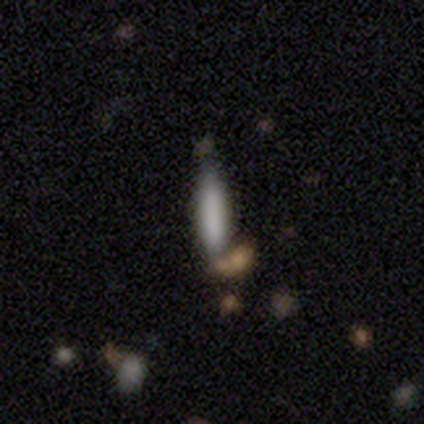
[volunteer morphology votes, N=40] A smooth galaxy with no disk features (72%) that is cigar-shaped (79%).

Vote fractions:
- Smooth or featured? smooth: 72% / featured or disk: 15% / star or artifact: 12%
- How rounded? cigar-shaped: 79% / in between: 21% / round: 0%
- Merging? none: 57% / merger: 20% / major disturbance: 14% / minor disturbance: 9%